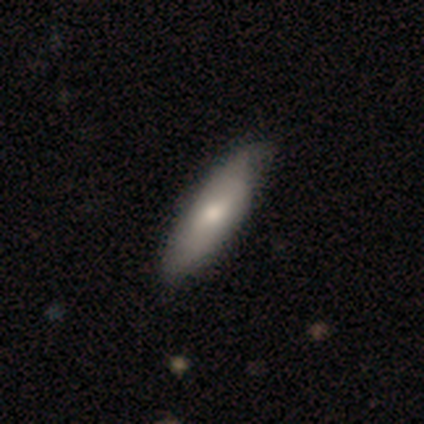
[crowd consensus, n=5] A smooth galaxy with no disk features (60%) that is in between round and cigar-shaped (67%). Merging: none (80%).